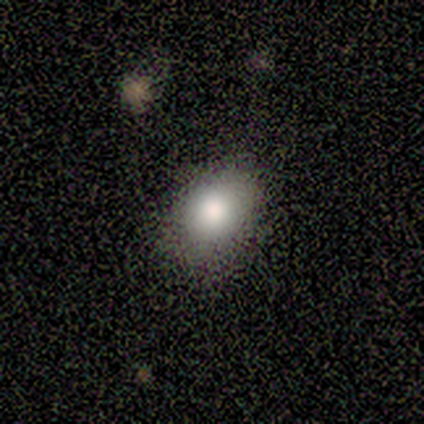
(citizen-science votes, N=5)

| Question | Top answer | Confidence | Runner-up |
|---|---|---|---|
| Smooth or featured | smooth | 80% | featured or disk (20%) |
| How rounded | round | 50% | tied: in between (50%) |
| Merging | none | 100% | — |